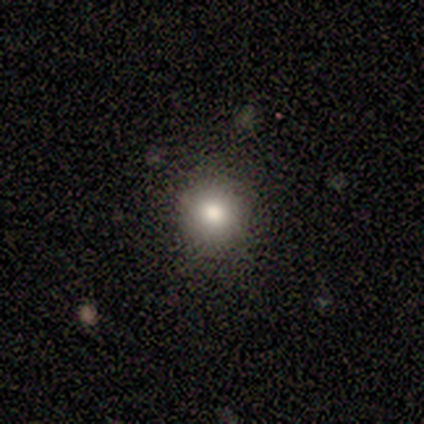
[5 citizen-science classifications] This is clearly a smooth galaxy (80%). How rounded: clearly round (100%). Merging: clearly none (100%).